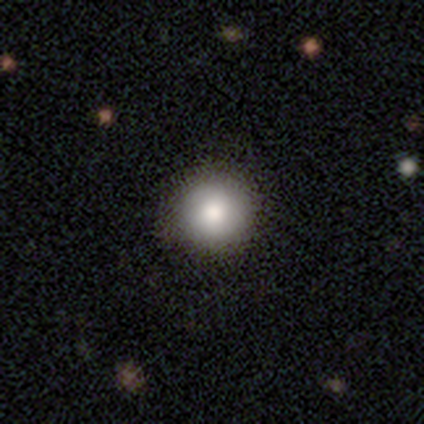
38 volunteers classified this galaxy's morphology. Smooth or featured? 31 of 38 (82%) said smooth. How rounded? 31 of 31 (100%) said round. Merging? 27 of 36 (75%) said none.